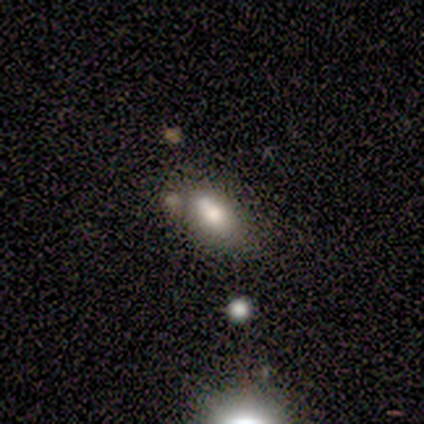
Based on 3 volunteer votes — smooth-or-featured: smooth: 100% | featured or disk: 0% | star or artifact: 0%
  how-rounded: in between: 100% | round: 0% | cigar-shaped: 0%
  merging: none: 33% (tied) | minor disturbance: 33% (tied) | major disturbance: 33% (tied) | merger: 0%